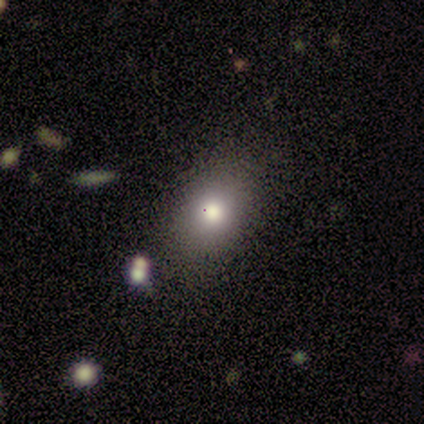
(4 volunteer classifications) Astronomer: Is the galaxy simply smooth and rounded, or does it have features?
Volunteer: smooth — 75%.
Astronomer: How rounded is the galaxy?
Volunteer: in between — 100%.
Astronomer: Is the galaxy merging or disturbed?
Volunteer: minor disturbance — 75%.